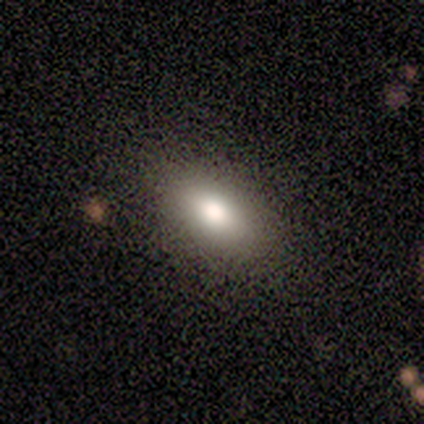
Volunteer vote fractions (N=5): This is clearly a smooth galaxy (100%). How rounded: clearly in between (80%). Merging: clearly none (100%).